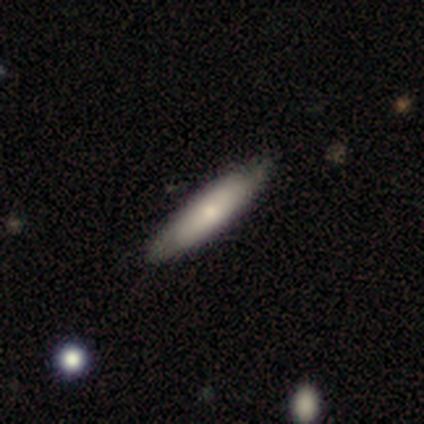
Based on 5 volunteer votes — A smooth galaxy with no disk features (80%) that is in between round and cigar-shaped (50%, tied with cigar-shaped). Merging: minor disturbance (60%).